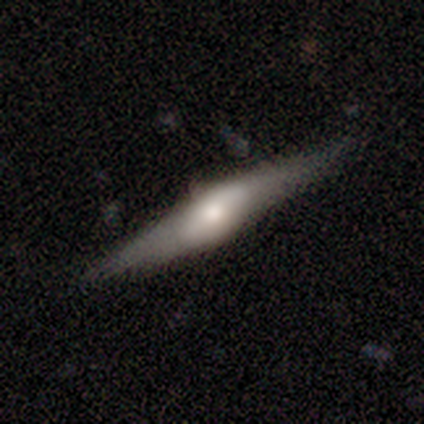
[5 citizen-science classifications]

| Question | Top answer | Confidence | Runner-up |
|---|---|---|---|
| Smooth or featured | smooth | 60% | featured or disk (40%) |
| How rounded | cigar-shaped | 67% | in between (33%) |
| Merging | none | 80% | major disturbance (20%) |